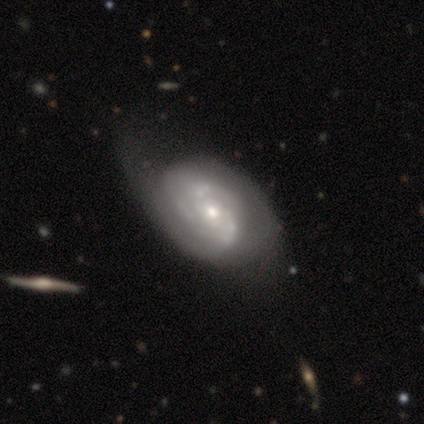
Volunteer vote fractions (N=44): A featured or disk galaxy (86%) with no bar (86%), 2 (64%) tight (48%) spiral arms (69%) and a small central bulge (56%). Merging: minor disturbance (36%).